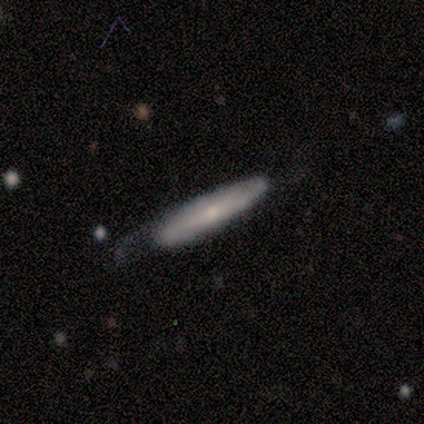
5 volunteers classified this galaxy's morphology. This is likely a featured or disk galaxy (60%). It is clearly not viewed edge-on (100%). Bar: likely no (67%). Spiral arm pattern: likely yes (67%). Spiral arm count: clearly can't tell (100%). Spiral winding: clearly tight (100%). Central bulge: likely small (67%). Merging: marginally none (40%, tied with major disturbance).